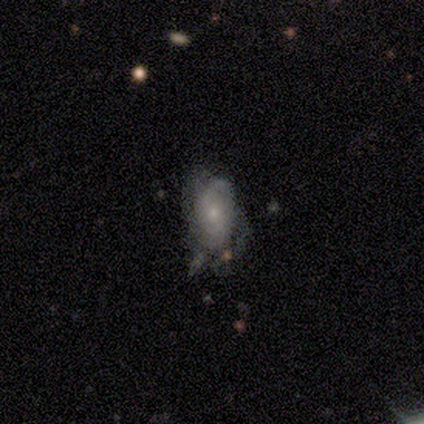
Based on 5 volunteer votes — Morphology: type=featured or disk (80%); edge-on=no (100%); bar=no (100%); spiral arms=yes (100%); winding=tight (50%); arm count=2 (75%); bulge=small (75%); merging=none (40%, tied with minor disturbance).